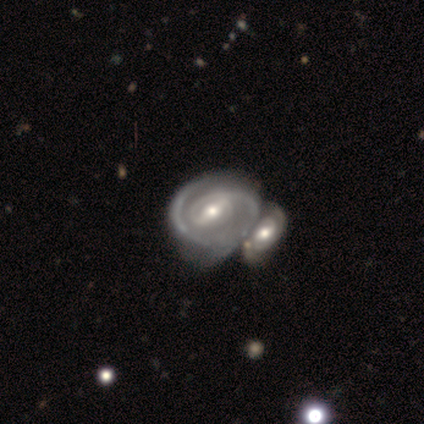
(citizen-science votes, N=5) Smooth or featured? featured or disk (100%)
Edge-on disk? no (100%)
Bar? weak (80%)
Spiral arms? yes (80%)
Spiral winding? tight (50%, tied with loose)
Spiral arm count? 2 (75%)
Bulge size? moderate (60%)
Merging? merger (80%)